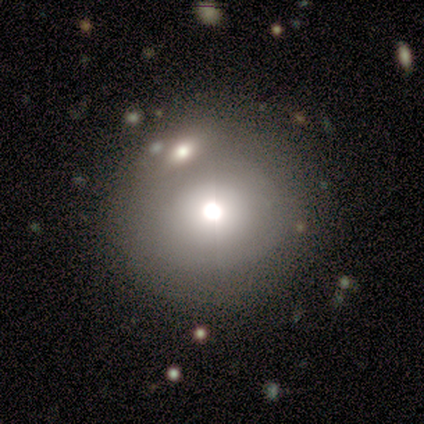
smooth 80%, featured or disk 20%, star or artifact 0%. Down the decision tree: how rounded — round (100%); merging — none (80%).